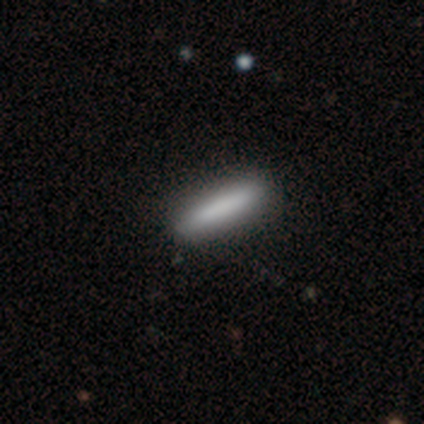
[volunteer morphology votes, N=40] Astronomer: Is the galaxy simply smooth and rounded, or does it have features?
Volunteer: smooth — 78%.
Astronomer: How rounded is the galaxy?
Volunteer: cigar-shaped — 90%.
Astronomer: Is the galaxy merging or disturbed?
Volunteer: none — 71%.